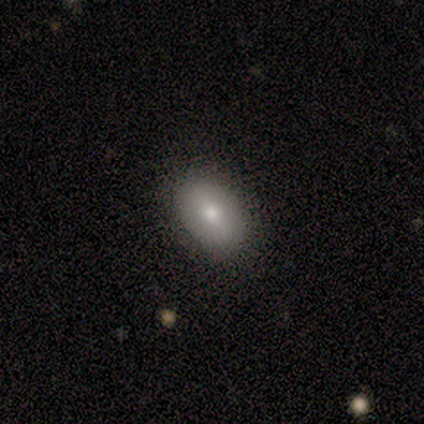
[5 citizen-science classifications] smooth_or_featured: smooth (p=0.80) [alt: featured or disk p=0.20]
how_rounded: in between (p=0.75) [alt: cigar-shaped p=0.25]
merging: none (p=0.80) [alt: minor disturbance p=0.20]